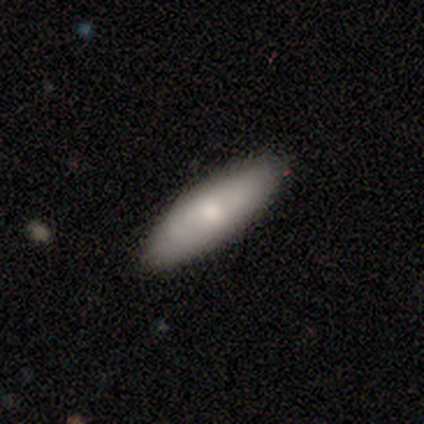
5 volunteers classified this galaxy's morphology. type=smooth (80%); roundness=in between (50%, tied with cigar-shaped); merging=none (100%).